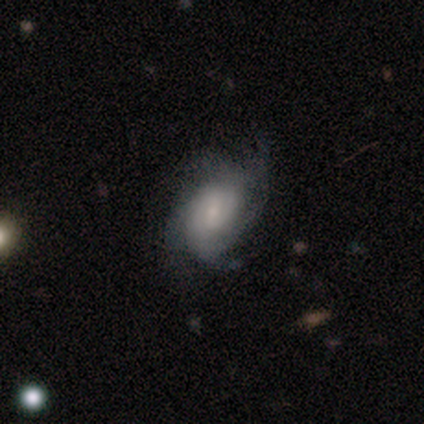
Q: Smooth or featured?
A: featured or disk (76%); runner-up: smooth (16%)
Q: Edge-on disk?
A: no (94%); runner-up: yes (6%)
Q: Bar?
A: weak (50%); runner-up: no (46%)
Q: Spiral arms?
A: yes (96%); runner-up: no (4%)
Q: Spiral winding?
A: medium (45%); runner-up: tight (42%)
Q: Spiral arm count?
A: 4 (37%); runner-up: can't tell (31%)
Q: Bulge size?
A: small (44%); runner-up: moderate (37%)
Q: Merging?
A: none (62%); runner-up: minor disturbance (29%)